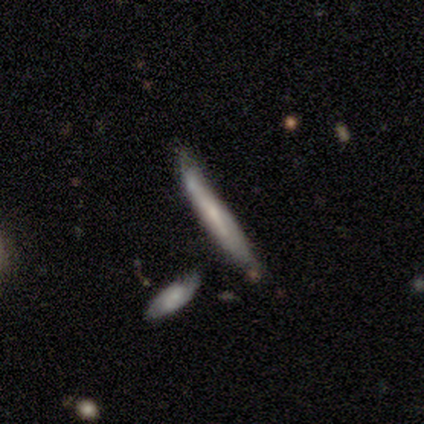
featured or disk 80%, smooth 20%, star or artifact 0%. Down the decision tree: edge-on disk — yes (75%); edge-on bulge — none (100%); merging — none (60%).